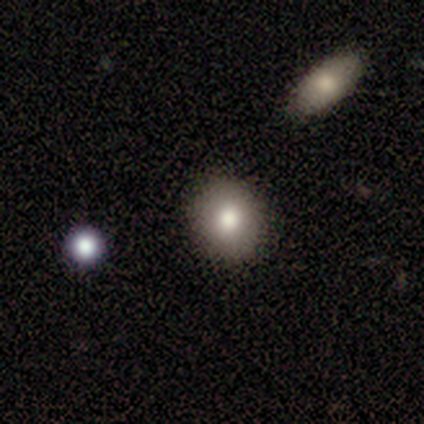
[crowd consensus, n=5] This is likely a smooth galaxy (60%). How rounded: likely round (67%). Merging: clearly none (80%).